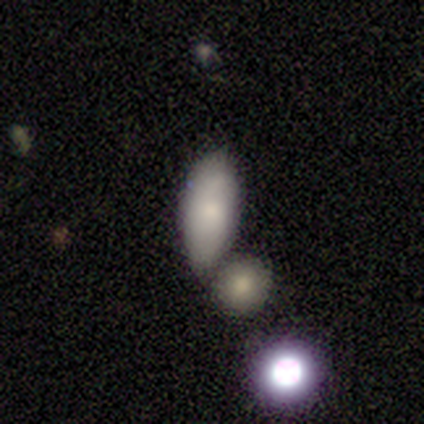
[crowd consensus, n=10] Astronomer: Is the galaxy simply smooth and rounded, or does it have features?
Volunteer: smooth — 90%.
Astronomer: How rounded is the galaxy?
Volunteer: in between — 100%.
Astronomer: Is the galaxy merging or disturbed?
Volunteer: minor disturbance — 40%, tied with merger at 40%.